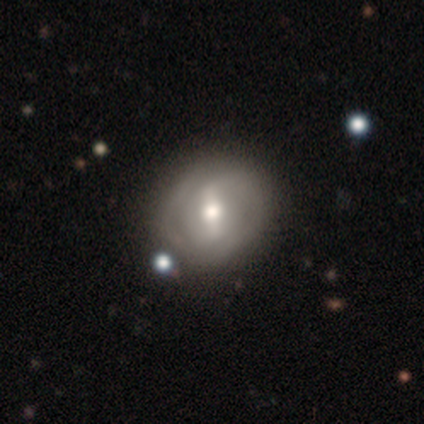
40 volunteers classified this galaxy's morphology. This appears to be a featured or disk galaxy (72%) with a strong bar (61%), 2 (63%) medium (47%) spiral arms (68%) and a moderate central bulge (75%). Merging: none (87%).